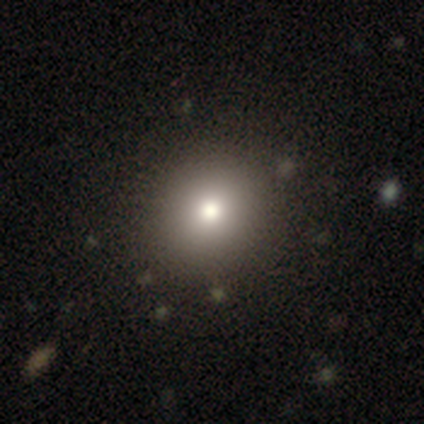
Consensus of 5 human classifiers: Smooth or featured?
  - smooth: 80% *
  - star or artifact: 20%
  - featured or disk: 0%
How rounded?
  - round: 100% *
  - in between: 0%
  - cigar-shaped: 0%
Merging?
  - none: 100% *
  - minor disturbance: 0%
  - major disturbance: 0%
  - merger: 0%